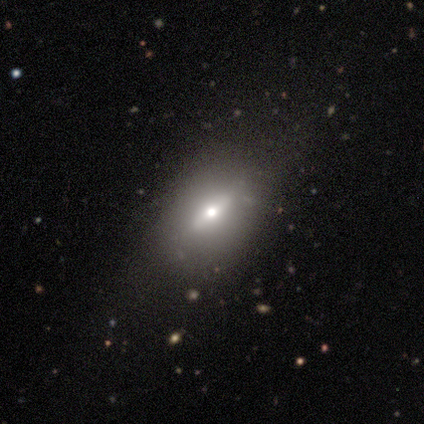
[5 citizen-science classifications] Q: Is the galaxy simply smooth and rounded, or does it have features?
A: smooth — 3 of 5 (60%).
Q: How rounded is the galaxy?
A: round — 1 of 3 (33%, tied with in between and cigar-shaped).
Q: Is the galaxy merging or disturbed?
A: none — 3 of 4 (75%).